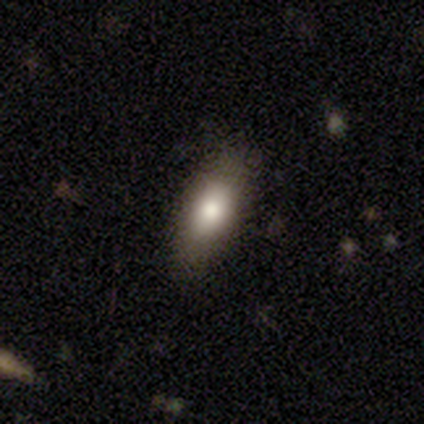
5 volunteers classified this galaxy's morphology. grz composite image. It shows a smooth galaxy with no disk features (60%) that is in between round and cigar-shaped (100%). Merging: none (100%).